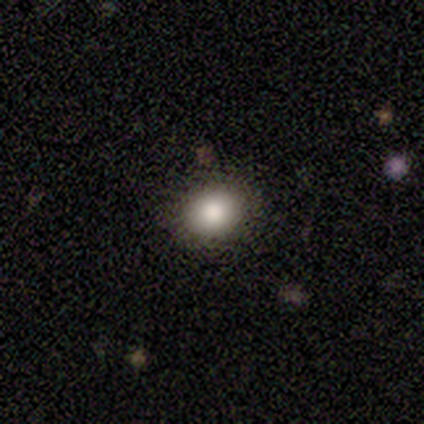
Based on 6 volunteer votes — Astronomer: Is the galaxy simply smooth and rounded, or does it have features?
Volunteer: star or artifact — 67%.